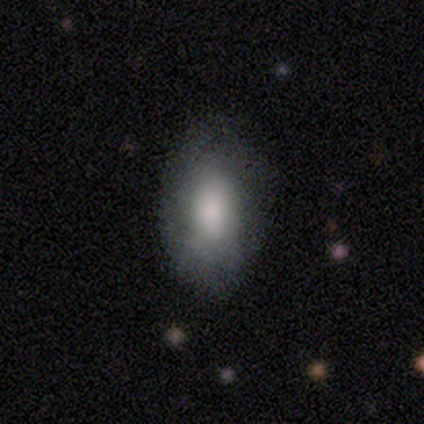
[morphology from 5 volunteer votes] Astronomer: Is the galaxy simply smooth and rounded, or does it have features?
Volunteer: smooth — 80%.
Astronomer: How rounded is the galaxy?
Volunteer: in between — 100%.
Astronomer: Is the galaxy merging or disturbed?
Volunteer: none — 60% (runner-up: minor disturbance, 40%).